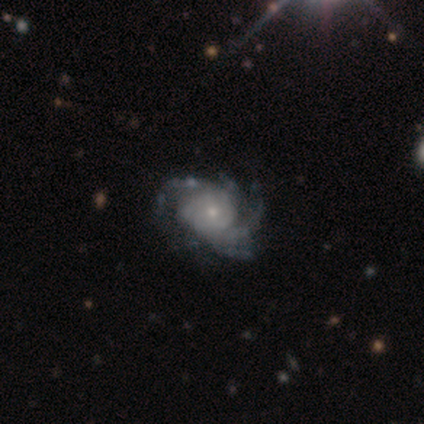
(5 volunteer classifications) A featured or disk galaxy (100%) with no bar (60%), 4 (40%) medium (80%) spiral arms (100%) and a moderate central bulge (60%).

Vote fractions:
- Smooth or featured? featured or disk: 100% / smooth: 0% / star or artifact: 0%
- Edge-on disk? no: 100% / yes: 0%
- Bar? no: 60% / strong: 20% / weak: 20%
- Spiral arms? yes: 100% / no: 0%
- Spiral winding? medium: 80% / tight: 20% / loose: 0%
- Spiral arm count? 4: 40% / 2: 20% / 3: 20% / can't tell: 20% / 1: 0% / more than 4: 0%
- Bulge size? moderate: 60% / large: 20% / small: 20% / dominant: 0% / none: 0%
- Merging? none: 60% / minor disturbance: 20% / major disturbance: 20% / merger: 0%